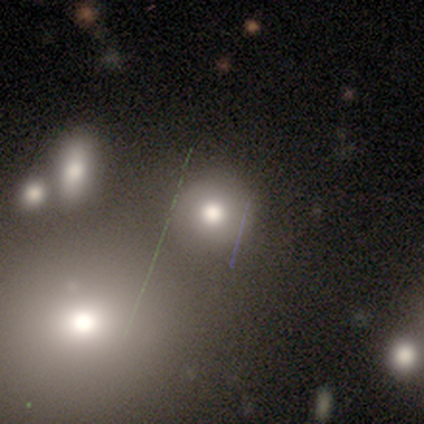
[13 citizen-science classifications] smooth-or-featured: smooth: 62% | star or artifact: 31% | featured or disk: 8%
  how-rounded: round: 100% | in between: 0% | cigar-shaped: 0%
  merging: none: 89% | merger: 11% | minor disturbance: 0% | major disturbance: 0%